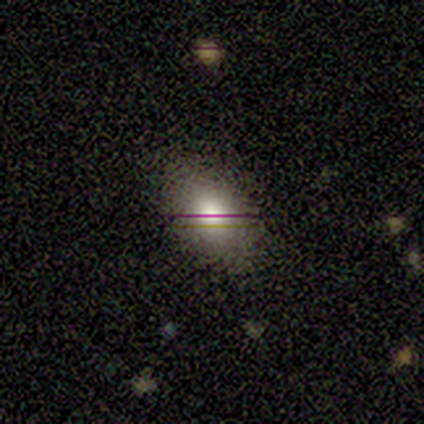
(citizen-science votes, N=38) A smooth galaxy with no disk features (63%) that is in between round and cigar-shaped (83%). Merging: none (84%).